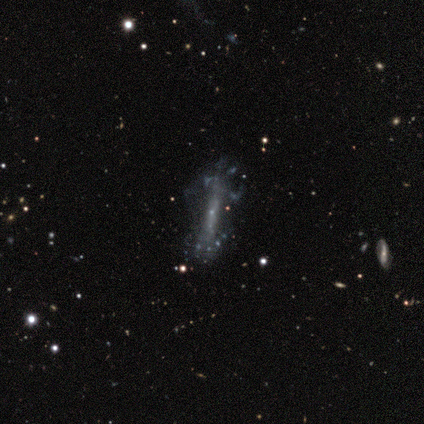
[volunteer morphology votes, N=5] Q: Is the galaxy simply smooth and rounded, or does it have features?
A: featured or disk — 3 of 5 (60%).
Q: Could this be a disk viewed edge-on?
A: yes — 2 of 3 (67%).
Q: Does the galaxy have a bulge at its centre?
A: none — 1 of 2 (50%, tied with rounded).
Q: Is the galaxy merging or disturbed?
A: none — 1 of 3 (33%, tied with minor disturbance and major disturbance).